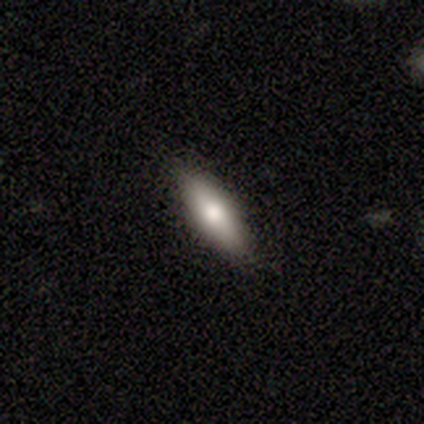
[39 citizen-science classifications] A smooth galaxy with no disk features (67%) that is cigar-shaped (69%).

Vote fractions:
- Smooth or featured? smooth: 67% / featured or disk: 26% / star or artifact: 8%
- How rounded? cigar-shaped: 69% / in between: 31% / round: 0%
- Merging? none: 94% / minor disturbance: 6% / major disturbance: 0% / merger: 0%